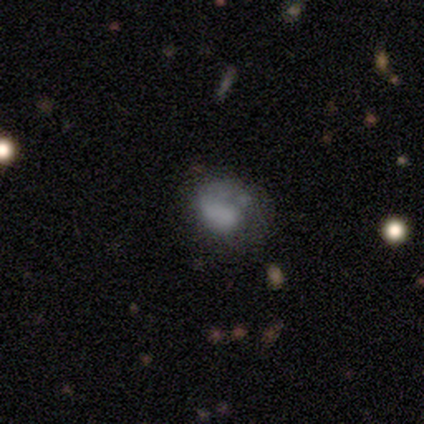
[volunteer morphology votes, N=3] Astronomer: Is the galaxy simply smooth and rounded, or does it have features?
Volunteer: smooth — 67%.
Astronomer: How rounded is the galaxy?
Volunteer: round — 100%.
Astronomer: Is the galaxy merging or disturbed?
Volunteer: none — 33%, tied with major disturbance and merger at 33%.